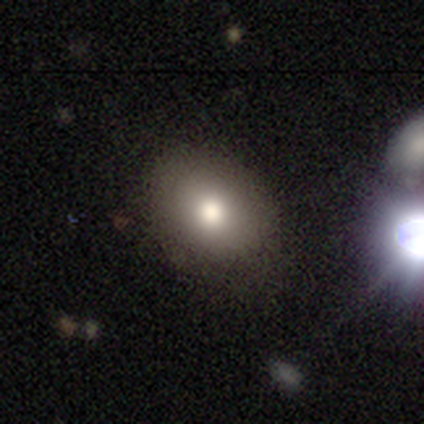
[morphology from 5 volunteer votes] Overall: smooth (100%). How rounded: in between (100%). Merging: minor disturbance (60%; none 40%).